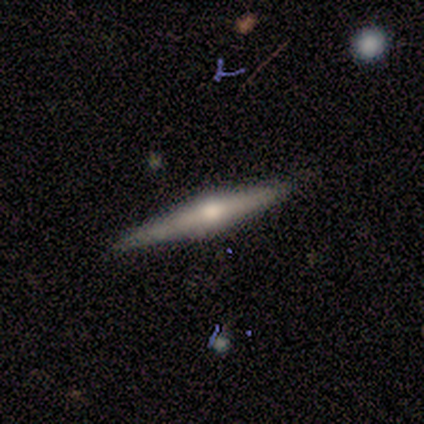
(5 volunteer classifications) Smooth or featured: featured or disk — 60% (smooth — 40%)
Edge-on disk: yes — 100%
Edge-on bulge: rounded — 100%
Merging: none — 100%